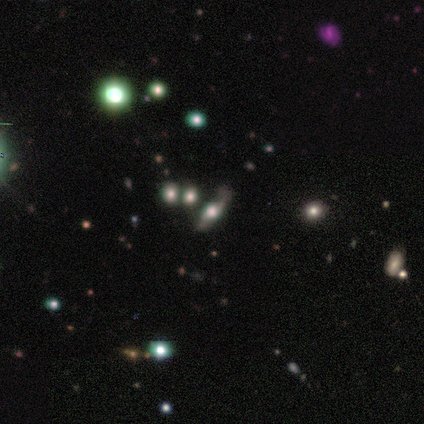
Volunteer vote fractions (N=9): A smooth galaxy with no disk features (44%) that is in between round and cigar-shaped (100%).

Vote fractions:
- Smooth or featured? smooth: 44% / featured or disk: 33% / star or artifact: 22%
- How rounded? in between: 100% / round: 0% / cigar-shaped: 0%
- Merging? none: 57% / minor disturbance: 29% / major disturbance: 14% / merger: 0%